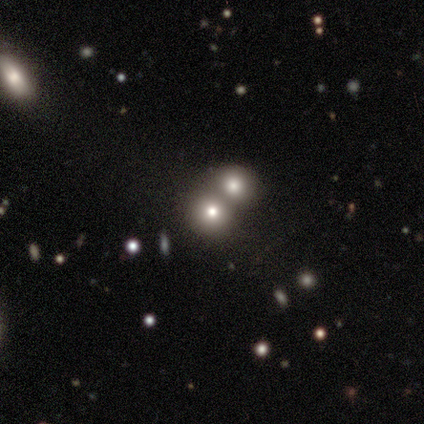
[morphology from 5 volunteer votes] Smooth or featured? smooth (80%)
How rounded? round (75%)
Merging? none (40%, tied with merger)